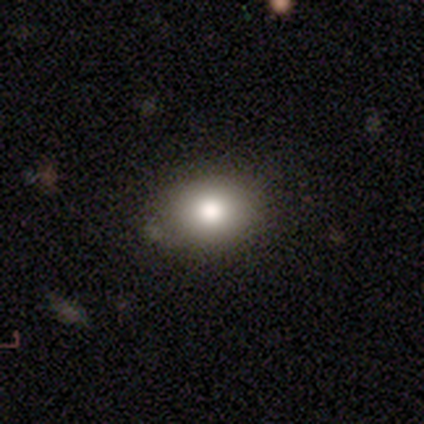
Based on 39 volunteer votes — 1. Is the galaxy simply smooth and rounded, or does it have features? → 79% smooth, 15% star or artifact, 5% featured or disk.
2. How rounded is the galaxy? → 65% in between, 35% round, 0% cigar-shaped.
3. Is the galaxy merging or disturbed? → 67% none, 3% minor disturbance, 3% merger, 0% major disturbance.